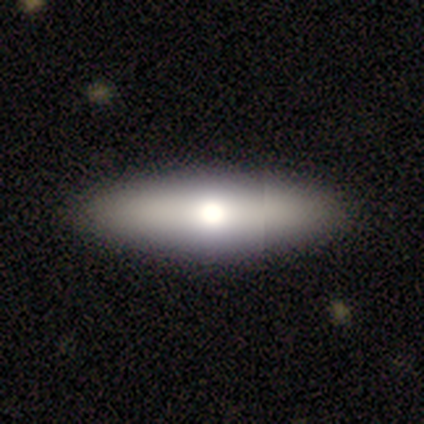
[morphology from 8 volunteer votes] This is likely a smooth galaxy (62%). How rounded: clearly cigar-shaped (80%). Merging: clearly none (100%).